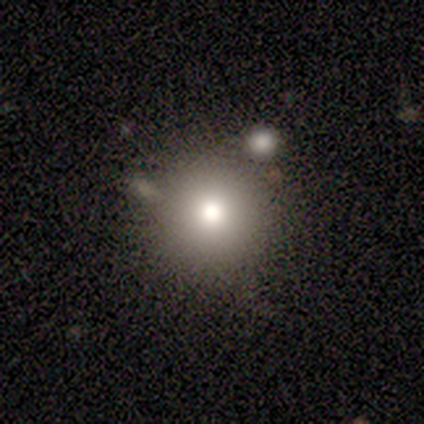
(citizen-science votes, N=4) A smooth galaxy with no disk features (75%) that is round (100%).

Vote fractions:
- Smooth or featured? smooth: 75% / star or artifact: 25% / featured or disk: 0%
- How rounded? round: 100% / in between: 0% / cigar-shaped: 0%
- Merging? none: 67% / merger: 33% / minor disturbance: 0% / major disturbance: 0%